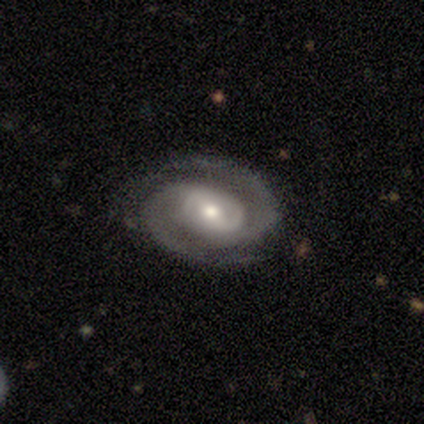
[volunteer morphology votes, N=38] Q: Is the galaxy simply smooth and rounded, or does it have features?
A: featured or disk — 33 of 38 (87%).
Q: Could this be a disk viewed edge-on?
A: no — 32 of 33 (97%).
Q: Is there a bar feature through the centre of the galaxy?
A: weak — 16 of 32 (50%).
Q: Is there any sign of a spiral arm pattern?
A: yes — 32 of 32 (100%).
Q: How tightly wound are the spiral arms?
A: medium — 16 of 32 (50%).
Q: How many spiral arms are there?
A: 2 — 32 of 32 (100%).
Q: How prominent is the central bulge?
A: moderate — 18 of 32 (56%).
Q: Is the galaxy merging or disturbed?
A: none — 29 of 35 (83%).